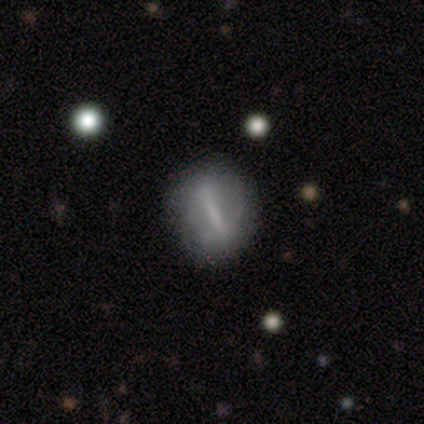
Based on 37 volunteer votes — Volunteers were most divided on "bar": strong: 60%, weak: 32%, no: 8%. Remaining: edge-on disk — no (96%); spiral arms — no (76%); smooth or featured — featured or disk (70%); bulge size — none (60%); merging — none (49%).